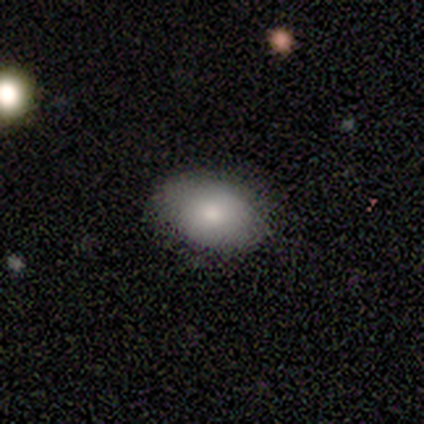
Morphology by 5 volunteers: Volunteers were most divided on "merging": none: 60%, minor disturbance: 40%, major disturbance: 0%, merger: 0%. More confident: how rounded — in between (100%); smooth or featured — smooth (80%).